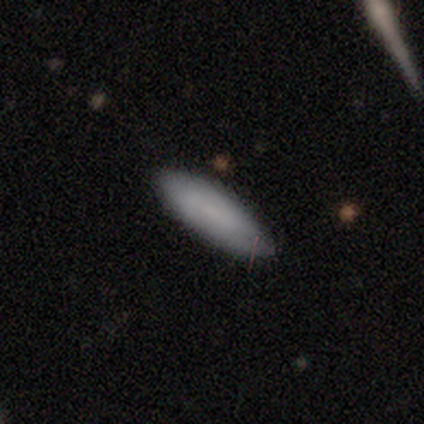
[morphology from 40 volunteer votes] Smooth or featured: smooth — 88% (star or artifact — 10%)
How rounded: in between — 66% (cigar-shaped — 34%)
Merging: none — 78% (minor disturbance — 22%)